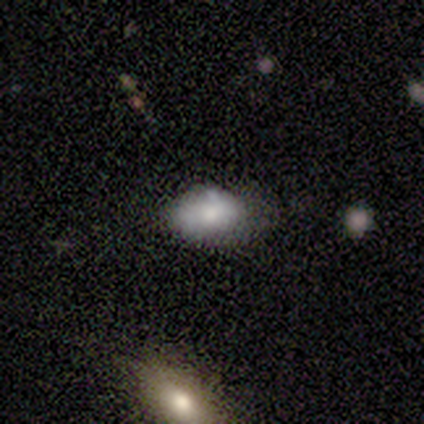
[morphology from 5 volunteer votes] Volunteers were most divided on "merging": none: 50%, minor disturbance: 25%, merger: 25%, major disturbance: 0%. More confident: edge-on disk — no (100%); bar — no (100%); spiral arms — no (100%); bulge size — moderate (67%); smooth or featured — featured or disk (60%).